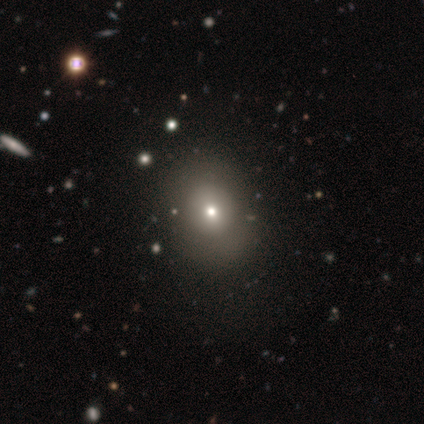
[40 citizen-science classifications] smooth-or-featured: smooth: 75% | featured or disk: 15% | star or artifact: 10%
  how-rounded: round: 63% | in between: 37% | cigar-shaped: 0%
  merging: none: 64% | minor disturbance: 14% | major disturbance: 0% | merger: 0%